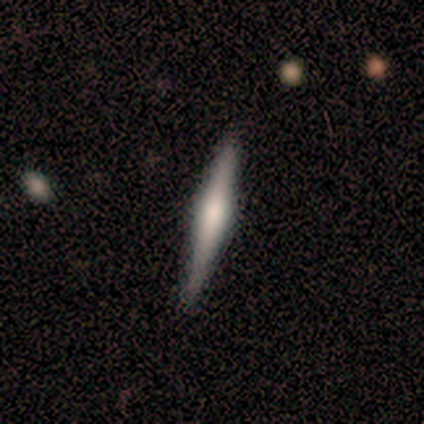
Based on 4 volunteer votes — smooth_or_featured: featured or disk (p=1.00)
disk_edge_on: yes (p=1.00)
edge_on_bulge: rounded (p=0.75) [alt: boxy p=0.25]
merging: none (p=0.75) [alt: minor disturbance p=0.25]